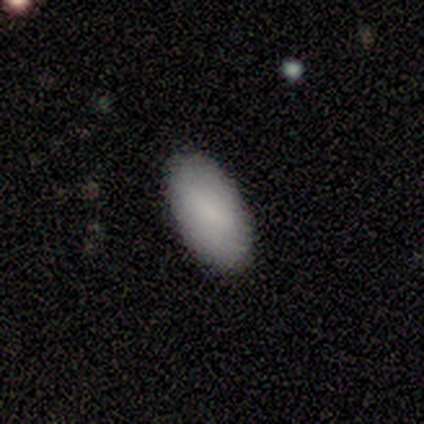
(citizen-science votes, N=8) Q: Smooth or featured?
A: smooth (100%)
Q: How rounded?
A: in between (100%)
Q: Merging?
A: none (100%)